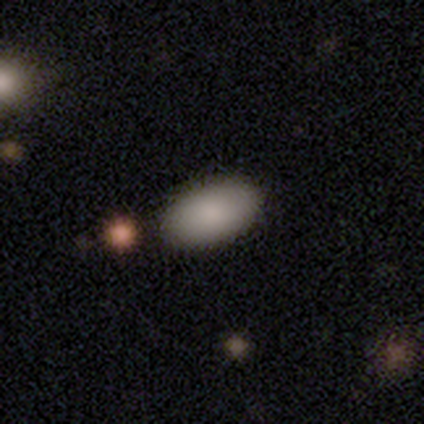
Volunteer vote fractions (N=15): A smooth galaxy with no disk features (93%) that is in between round and cigar-shaped (100%).

Vote fractions:
- Smooth or featured? smooth: 93% / featured or disk: 7% / star or artifact: 0%
- How rounded? in between: 100% / round: 0% / cigar-shaped: 0%
- Merging? none: 100% / minor disturbance: 0% / major disturbance: 0% / merger: 0%